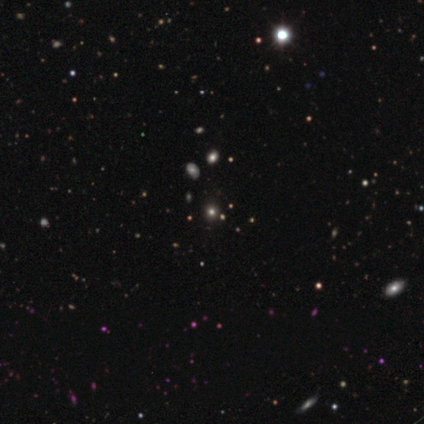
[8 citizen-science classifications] smooth_or_featured: smooth (p=0.38) [tied with: star or artifact p=0.38]
how_rounded: round (p=0.67) [alt: in between p=0.33]
merging: none (p=0.80) [alt: minor disturbance p=0.20]